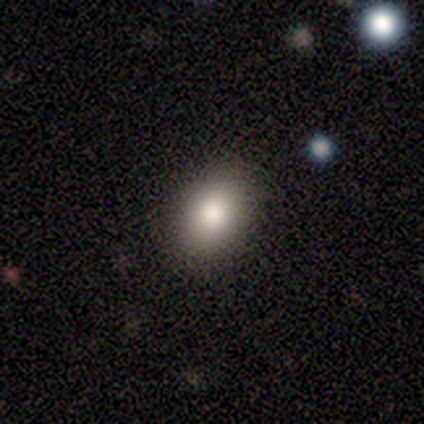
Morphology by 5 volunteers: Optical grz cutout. It shows a smooth galaxy with no disk features (100%) that is in between round and cigar-shaped (80%). Merging: none (100%).